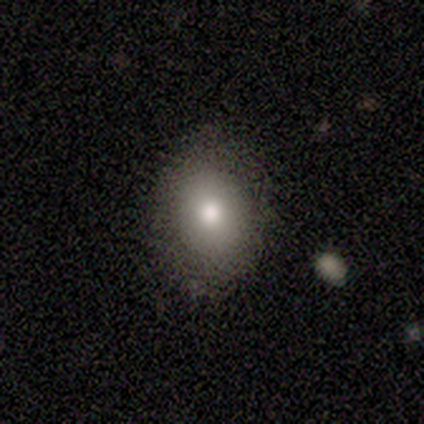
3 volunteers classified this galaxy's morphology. Smooth or featured?
  - smooth: 67% *
  - featured or disk: 33%
  - star or artifact: 0%
How rounded?
  - in between: 100% *
  - round: 0%
  - cigar-shaped: 0%
Merging?
  - none: 33% * (tied)
  - minor disturbance: 33% * (tied)
  - merger: 33% * (tied)
  - major disturbance: 0%